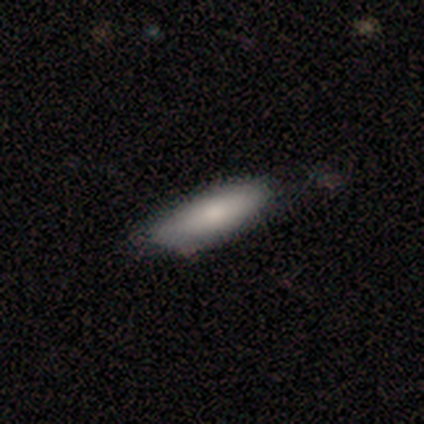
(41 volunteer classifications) Smooth or featured? smooth (85%)
How rounded? in between (63%)
Merging? none (85%)